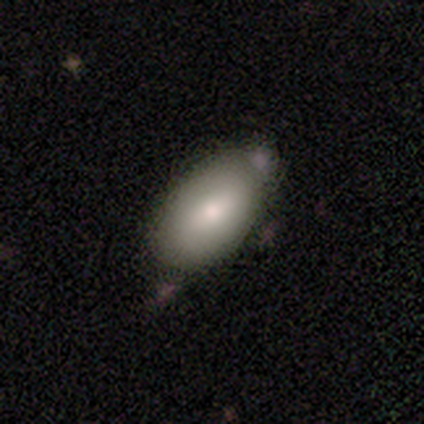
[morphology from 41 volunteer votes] Smooth or featured?
  - smooth: 88% *
  - featured or disk: 7%
  - star or artifact: 5%
How rounded?
  - in between: 94% *
  - round: 6%
  - cigar-shaped: 0%
Merging?
  - none: 69% *
  - minor disturbance: 13%
  - merger: 10%
  - major disturbance: 8%